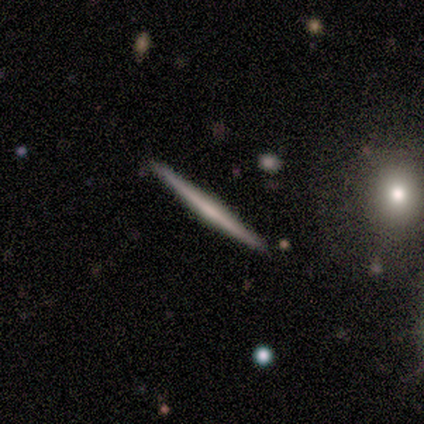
This appears to be a smooth galaxy with no disk features (60%) that is cigar-shaped (100%). Merging: none (100%).